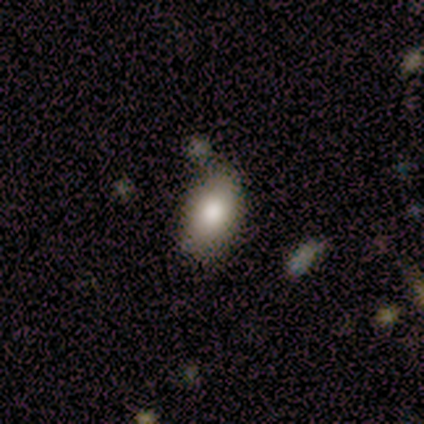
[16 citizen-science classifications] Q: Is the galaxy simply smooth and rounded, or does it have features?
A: smooth — 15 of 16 (94%).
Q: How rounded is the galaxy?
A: in between — 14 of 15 (93%).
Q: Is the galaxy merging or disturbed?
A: none — 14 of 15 (93%).